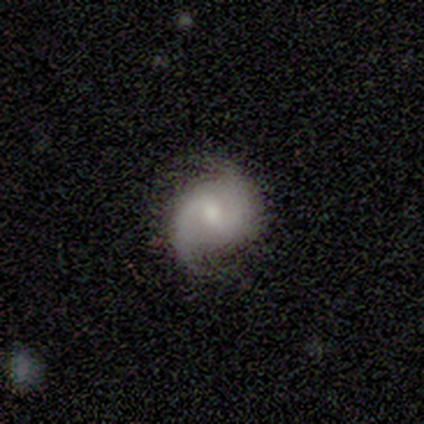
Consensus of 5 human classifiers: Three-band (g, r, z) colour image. It shows a featured or disk galaxy (60%) with a weak bar (67%), 2 (67%) tight (33%, tied with medium and loose) spiral arms (100%) and a small central bulge (67%). Merging: none (40%, tied with minor disturbance).